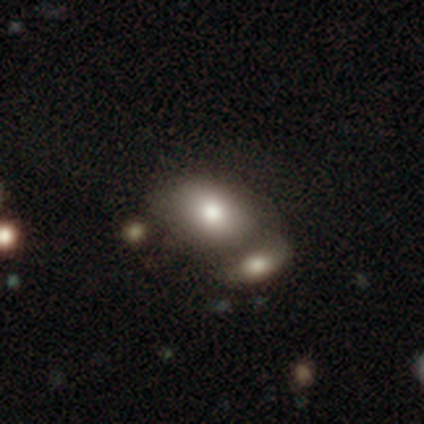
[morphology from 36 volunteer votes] A smooth galaxy with no disk features (86%) that is in between round and cigar-shaped (68%).

Vote fractions:
- Smooth or featured? smooth: 86% / star or artifact: 11% / featured or disk: 3%
- How rounded? in between: 68% / round: 32% / cigar-shaped: 0%
- Merging? merger: 50% / none: 0% / minor disturbance: 0% / major disturbance: 0%